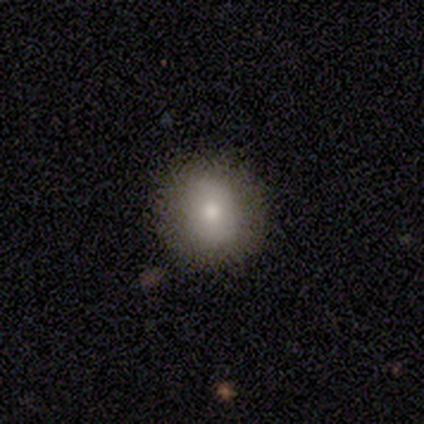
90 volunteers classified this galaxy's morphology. smooth-or-featured: smooth: 78% | featured or disk: 14% | star or artifact: 8%
  how-rounded: round: 81% | in between: 17% | cigar-shaped: 1%
  merging: none: 92% | minor disturbance: 7% | merger: 1% | major disturbance: 0%